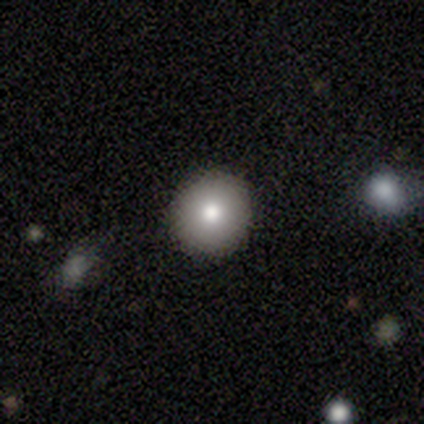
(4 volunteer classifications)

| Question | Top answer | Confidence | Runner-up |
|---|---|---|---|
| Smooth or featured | smooth | 75% | featured or disk (25%) |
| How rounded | round | 67% | in between (33%) |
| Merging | none | 75% | major disturbance (25%) |